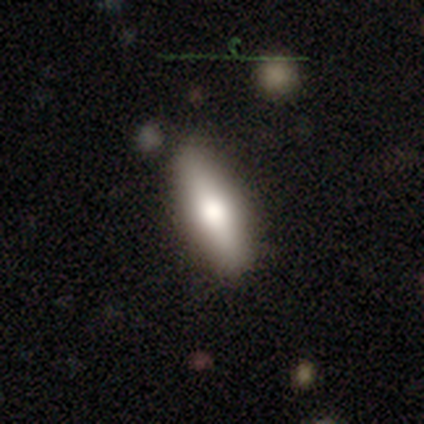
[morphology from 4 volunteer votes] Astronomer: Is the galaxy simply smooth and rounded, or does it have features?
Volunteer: smooth — 50%.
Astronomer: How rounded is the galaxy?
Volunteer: cigar-shaped — 100%.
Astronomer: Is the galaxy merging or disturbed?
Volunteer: none — 100%.